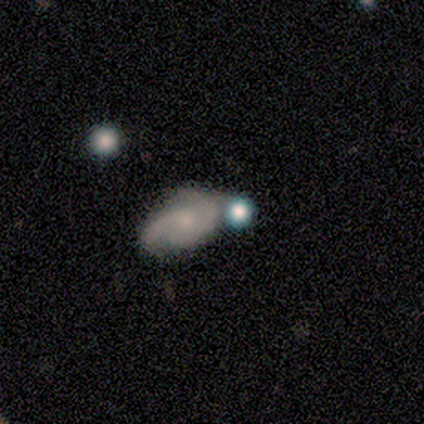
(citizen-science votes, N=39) Smooth or featured?
  - featured or disk: 56% *
  - star or artifact: 23%
  - smooth: 21%
Edge-on disk?
  - no: 95% *
  - yes: 5%
Bar?
  - no: 86% *
  - weak: 14%
  - strong: 0%
Spiral arms?
  - yes: 95% *
  - no: 5%
Spiral winding?
  - medium: 45% *
  - tight: 30%
  - loose: 25%
Spiral arm count?
  - 2: 85% *
  - can't tell: 10%
  - 1: 5%
  - 3: 0%
  - 4: 0%
  - more than 4: 0%
Bulge size?
  - small: 67% *
  - none: 19%
  - moderate: 14%
  - dominant: 0%
  - large: 0%
Merging?
  - merger: 30% *
  - none: 23%
  - minor disturbance: 17%
  - major disturbance: 0%